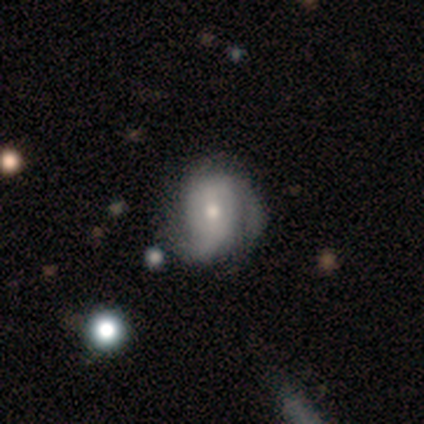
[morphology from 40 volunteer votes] Overall: featured or disk (68%; smooth 30%). Edge-on disk: no (100%). Bar: no (67%). Spiral arms: yes (93%). Spiral arm count: 2 (48%; 3 24%). Spiral winding: tight (44%; medium 32%). Bulge size: moderate (59%; small 41%). Merging: none (33%; minor disturbance 28%).